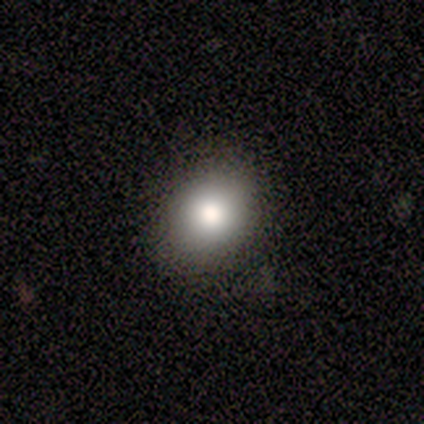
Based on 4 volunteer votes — This appears to be a smooth galaxy with no disk features (50%) that is round (50%, tied with in between). Merging: none (100%).